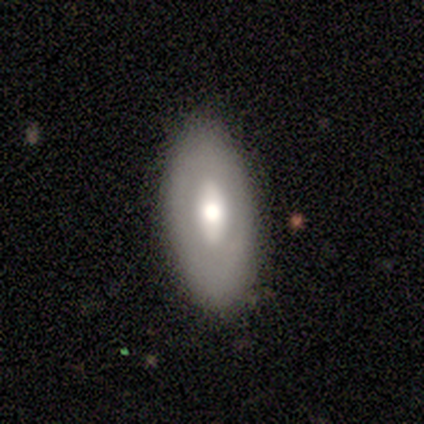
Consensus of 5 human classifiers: This is clearly a smooth galaxy (80%). How rounded: likely in between (75%). Merging: likely minor disturbance (60%).